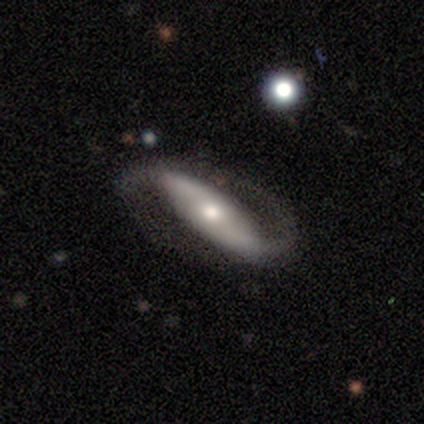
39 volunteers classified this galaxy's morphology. Smooth or featured? 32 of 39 (82%) said featured or disk. Edge-on disk? 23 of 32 (72%) said no. Bar? 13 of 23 (57%) said strong. Spiral arms? 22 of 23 (96%) said yes. Spiral winding? 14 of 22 (64%) said loose. Spiral arm count? 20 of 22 (91%) said 2. Bulge size? 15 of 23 (65%) said moderate. Merging? 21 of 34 (62%) said none.